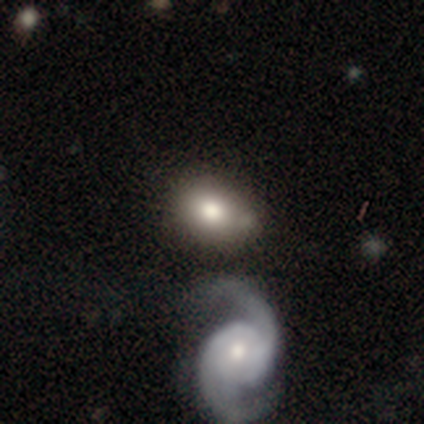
Smooth or featured?
  - smooth: 60% *
  - featured or disk: 38%
  - star or artifact: 2%
How rounded?
  - in between: 75% *
  - round: 25%
  - cigar-shaped: 0%
Merging?
  - none: 49% *
  - minor disturbance: 21%
  - merger: 18%
  - major disturbance: 13%